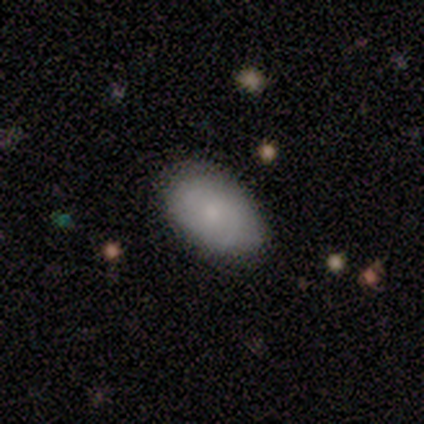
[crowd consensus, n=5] Morphology: type=smooth (60%); roundness=round (33%, tied with in between and cigar-shaped); merging=none (80%).